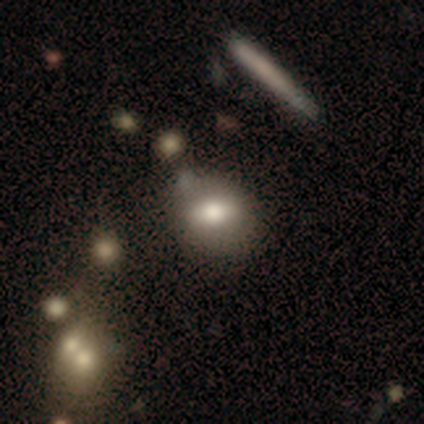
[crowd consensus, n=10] smooth 80%, featured or disk 20%, star or artifact 0%. Down the decision tree: how rounded — in between (75%); merging — none (60%).